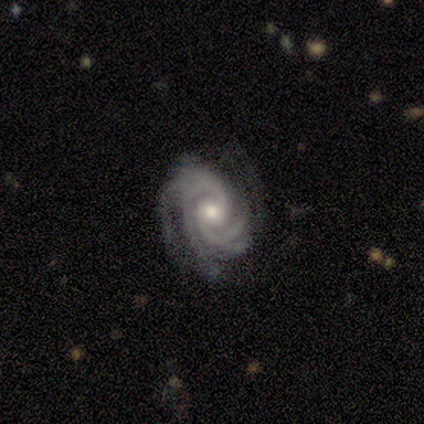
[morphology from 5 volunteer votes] Smooth or featured?
  - featured or disk: 80% *
  - star or artifact: 20%
  - smooth: 0%
Edge-on disk?
  - no: 100% *
  - yes: 0%
Bar?
  - no: 100% *
  - strong: 0%
  - weak: 0%
Spiral arms?
  - yes: 100% *
  - no: 0%
Spiral winding?
  - tight: 75% *
  - medium: 25%
  - loose: 0%
Spiral arm count?
  - 4: 75% *
  - 3: 25%
  - 1: 0%
  - 2: 0%
  - more than 4: 0%
  - can't tell: 0%
Bulge size?
  - moderate: 75% *
  - small: 25%
  - dominant: 0%
  - large: 0%
  - none: 0%
Merging?
  - none: 100% *
  - minor disturbance: 0%
  - major disturbance: 0%
  - merger: 0%